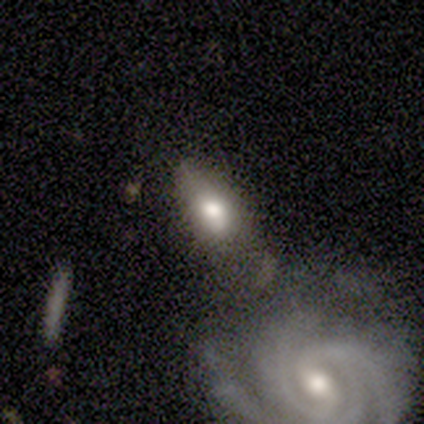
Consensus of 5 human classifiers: This appears to be a smooth galaxy with no disk features (60%) that is in between round and cigar-shaped (100%). Merging: none (40%, tied with merger).